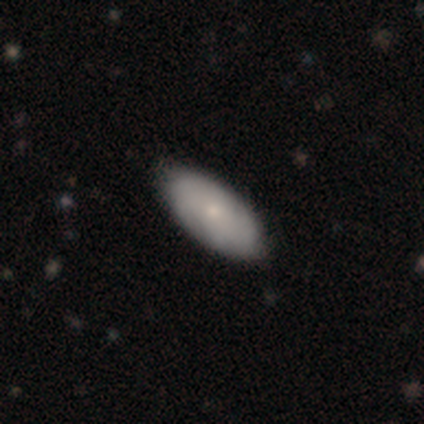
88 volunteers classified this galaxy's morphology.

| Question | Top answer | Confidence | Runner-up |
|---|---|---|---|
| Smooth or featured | smooth | 69% | featured or disk (28%) |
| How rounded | in between | 85% | cigar-shaped (15%) |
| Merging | none | 90% | minor disturbance (9%) |